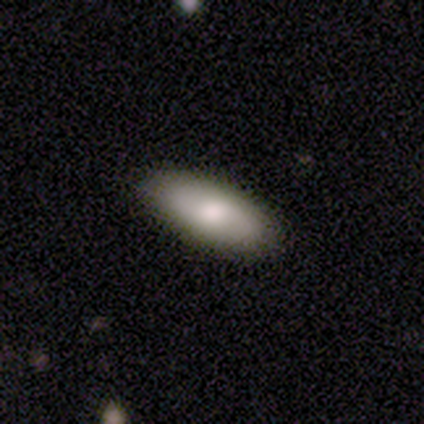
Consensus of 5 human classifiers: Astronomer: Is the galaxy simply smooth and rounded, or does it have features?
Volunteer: smooth — 40%, tied with featured or disk at 40%.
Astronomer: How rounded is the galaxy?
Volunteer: in between — 100%.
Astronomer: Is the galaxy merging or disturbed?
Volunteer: none — 100%.